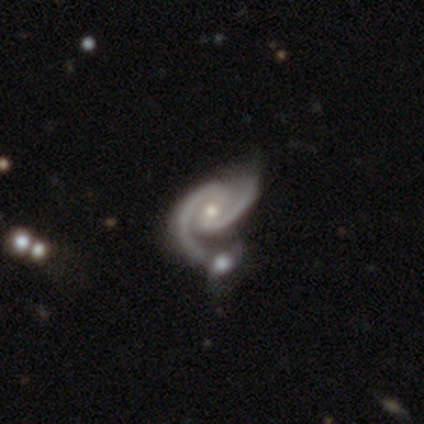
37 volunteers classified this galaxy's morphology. Smooth or featured? 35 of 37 (95%) said featured or disk. Edge-on disk? 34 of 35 (97%) said no. Bar? 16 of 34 (47%) said weak. Spiral arms? 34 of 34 (100%) said yes. Spiral winding? 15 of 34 (44%) said medium. Spiral arm count? 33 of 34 (97%) said 2. Bulge size? 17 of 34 (50%, tied with small) said moderate. Merging? 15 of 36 (42%) said merger.